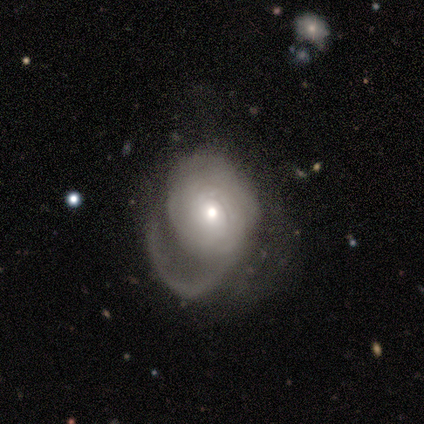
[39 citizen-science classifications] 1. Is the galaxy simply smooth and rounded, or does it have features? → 67% featured or disk, 33% smooth, 0% star or artifact.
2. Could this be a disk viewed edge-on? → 96% no, 4% yes.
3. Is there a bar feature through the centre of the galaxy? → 80% no, 16% weak, 4% strong.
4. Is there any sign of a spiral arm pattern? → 84% yes, 16% no.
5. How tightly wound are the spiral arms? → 48% tight, 33% medium, 19% loose.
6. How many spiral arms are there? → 48% 1 (tied), 48% can't tell (tied), 5% 2, 0% 3, 0% 4, 0% more than 4.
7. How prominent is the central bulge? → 60% moderate, 32% small, 4% large, 4% none, 0% dominant.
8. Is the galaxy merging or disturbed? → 74% major disturbance, 18% none, 8% minor disturbance, 0% merger.